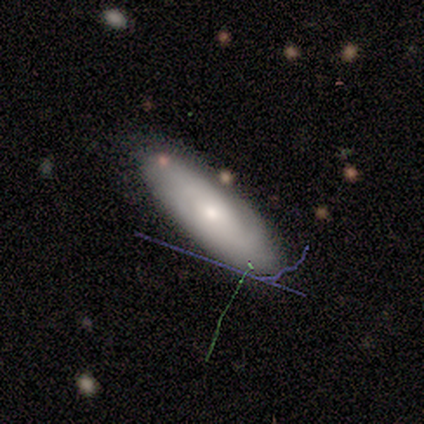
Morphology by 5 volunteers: smooth_or_featured: smooth (p=0.60) [alt: featured or disk p=0.40]
how_rounded: in between (p=0.67) [alt: cigar-shaped p=0.33]
merging: none (p=0.60) [alt: minor disturbance p=0.40]